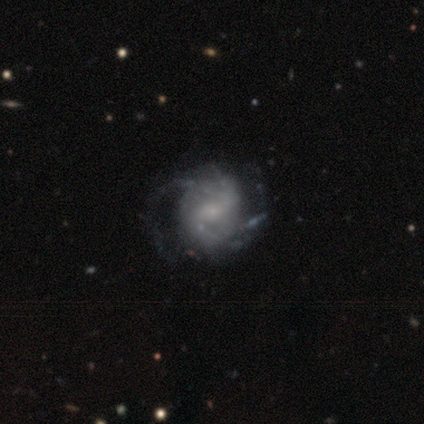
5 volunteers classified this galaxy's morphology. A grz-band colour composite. It shows a featured or disk galaxy (80%) with no bar (75%), 2 (50%) tight (75%) spiral arms (100%) and a small central bulge (100%). Merging: none (60%).